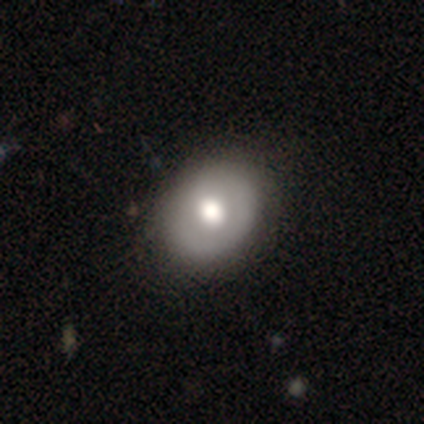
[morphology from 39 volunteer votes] This is likely a smooth galaxy (67%). How rounded: possibly round (50%, tied with in between). Merging: likely none (70%).